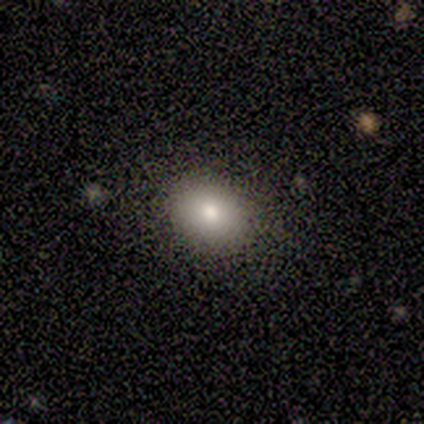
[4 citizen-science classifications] A smooth galaxy with no disk features (100%) that is round (75%). Merging: none (50%).